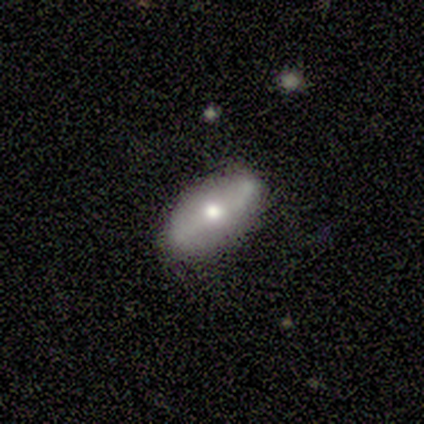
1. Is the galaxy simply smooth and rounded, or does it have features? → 60% smooth, 40% featured or disk, 0% star or artifact.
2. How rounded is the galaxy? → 100% in between, 0% round, 0% cigar-shaped.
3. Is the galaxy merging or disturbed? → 80% none, 20% minor disturbance, 0% major disturbance, 0% merger.